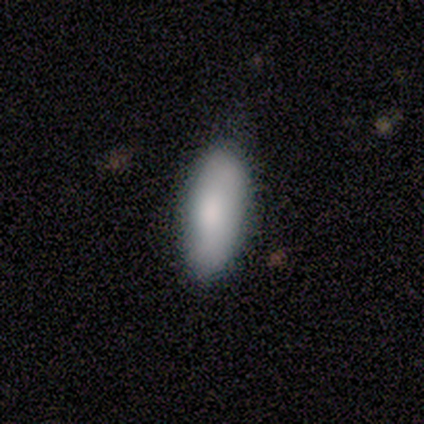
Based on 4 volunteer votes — Overall: smooth (100%). How rounded: in between (100%). Merging: none (75%).